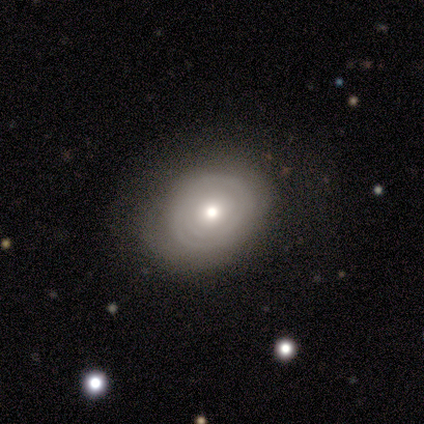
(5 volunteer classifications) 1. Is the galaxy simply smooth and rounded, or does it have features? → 100% featured or disk, 0% smooth, 0% star or artifact.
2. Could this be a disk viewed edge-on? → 100% no, 0% yes.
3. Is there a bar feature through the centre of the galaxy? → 80% no, 20% strong, 0% weak.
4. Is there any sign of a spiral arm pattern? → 80% yes, 20% no.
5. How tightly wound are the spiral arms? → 75% tight, 25% medium, 0% loose.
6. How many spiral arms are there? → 50% 2 (tied), 50% can't tell (tied), 0% 1, 0% 3, 0% 4, 0% more than 4.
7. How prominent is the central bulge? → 60% moderate, 40% small, 0% dominant, 0% large, 0% none.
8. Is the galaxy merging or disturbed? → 100% none, 0% minor disturbance, 0% major disturbance, 0% merger.